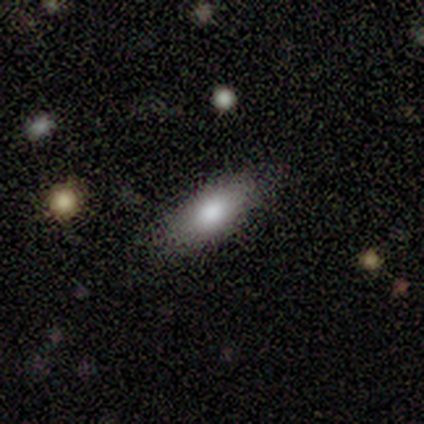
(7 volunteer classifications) Q: Smooth or featured?
A: smooth (100%)
Q: How rounded?
A: in between (86%); runner-up: cigar-shaped (14%)
Q: Merging?
A: none (71%); runner-up: minor disturbance (29%)